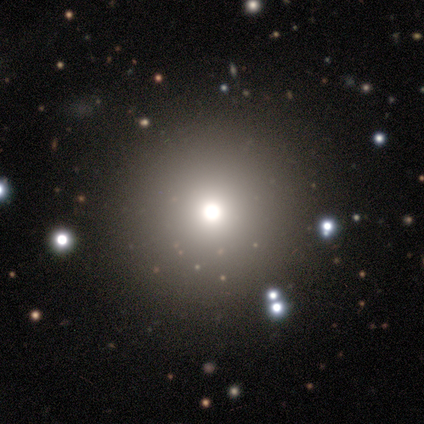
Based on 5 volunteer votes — A smooth galaxy with no disk features (80%) that is round (100%).

Vote fractions:
- Smooth or featured? smooth: 80% / star or artifact: 20% / featured or disk: 0%
- How rounded? round: 100% / in between: 0% / cigar-shaped: 0%
- Merging? none: 100% / minor disturbance: 0% / major disturbance: 0% / merger: 0%